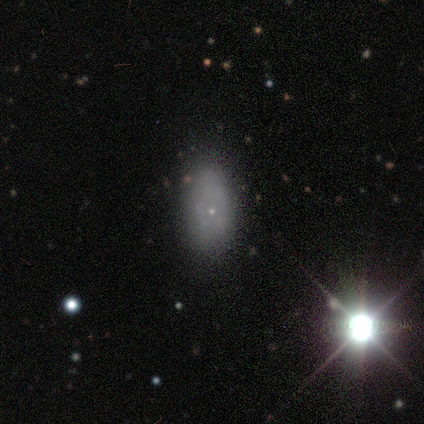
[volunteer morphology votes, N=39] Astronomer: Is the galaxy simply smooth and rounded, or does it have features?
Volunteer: smooth — 59%.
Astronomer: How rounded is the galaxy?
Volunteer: in between — 96%.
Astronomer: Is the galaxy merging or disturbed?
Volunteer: none — 76%.